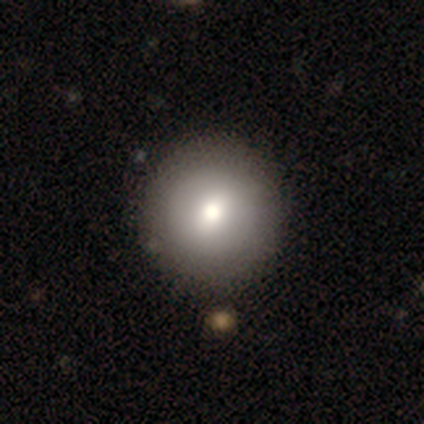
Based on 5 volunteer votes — A smooth galaxy with no disk features (80%) that is round (100%).

Vote fractions:
- Smooth or featured? smooth: 80% / star or artifact: 20% / featured or disk: 0%
- How rounded? round: 100% / in between: 0% / cigar-shaped: 0%
- Merging? none: 100% / minor disturbance: 0% / major disturbance: 0% / merger: 0%